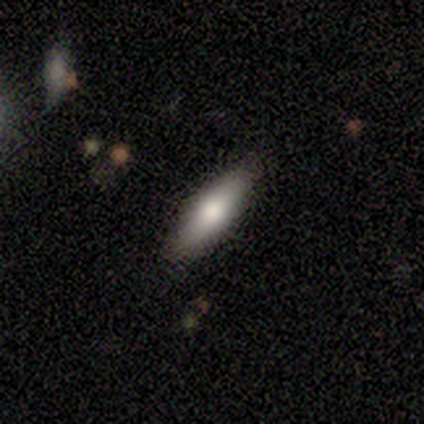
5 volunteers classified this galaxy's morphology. type=smooth (80%); roundness=cigar-shaped (75%); merging=none (80%).